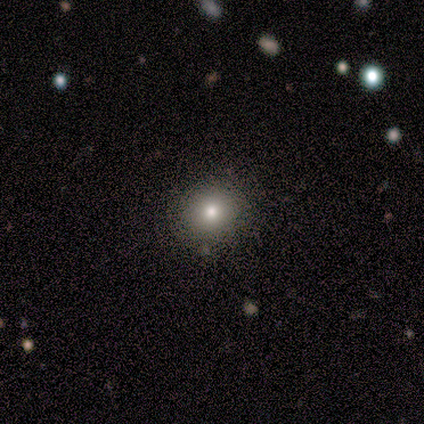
Q: Smooth or featured?
A: smooth (80%); runner-up: featured or disk (20%)
Q: How rounded?
A: round (100%)
Q: Merging?
A: none (100%)